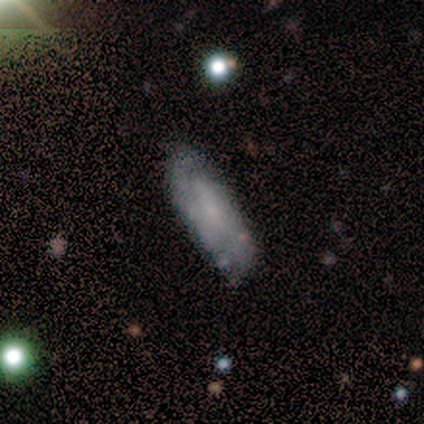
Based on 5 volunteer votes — This appears to be a featured or disk galaxy (60%) with a weak bar (67%), 2 (100%) tight (50%, tied with loose) spiral arms (67%) and a small central bulge (67%). Merging: none (80%).